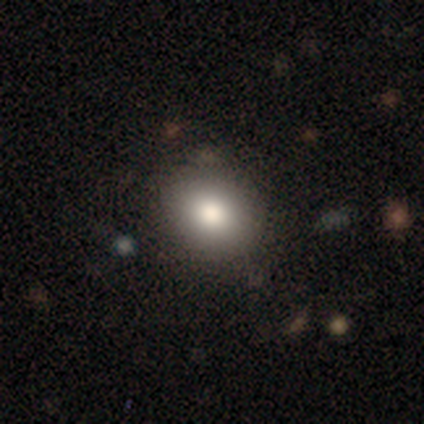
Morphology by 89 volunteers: This appears to be a smooth galaxy with no disk features (83%) that is round (68%). Merging: none (84%).